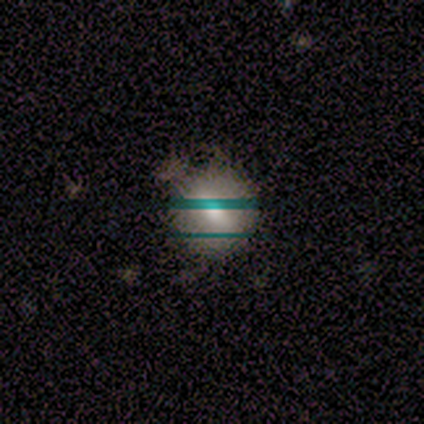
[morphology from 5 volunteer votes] Smooth or featured? 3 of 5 (60%) said smooth. How rounded? 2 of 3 (67%) said round. Merging? 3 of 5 (60%) said none.